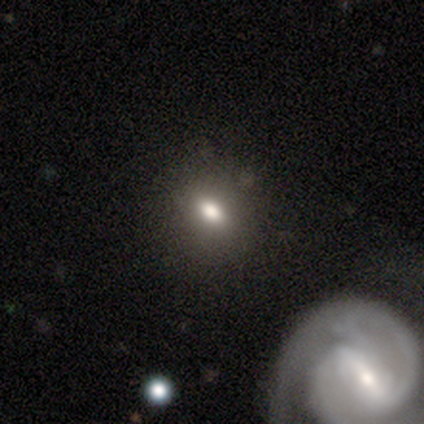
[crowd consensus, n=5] This is likely a featured or disk galaxy (60%). It is clearly not viewed edge-on (100%). Bar: likely no (67%). Spiral arm pattern: clearly no (100%). Central bulge: likely moderate (67%). Merging: likely none (75%).